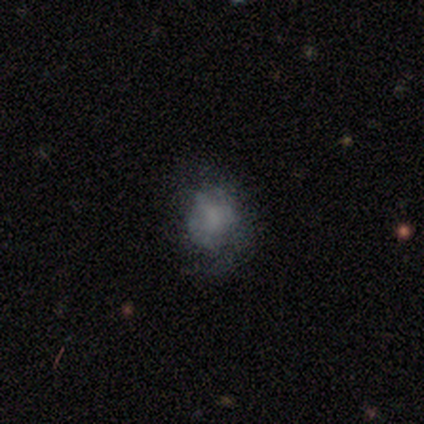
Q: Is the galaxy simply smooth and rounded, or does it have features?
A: smooth — 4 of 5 (80%).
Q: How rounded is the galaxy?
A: round — 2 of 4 (50%, tied with in between).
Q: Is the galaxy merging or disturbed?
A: none — 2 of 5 (40%, tied with major disturbance).